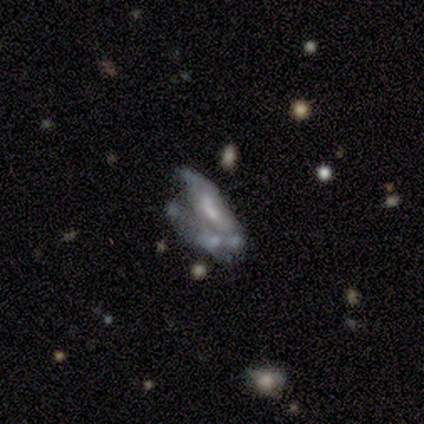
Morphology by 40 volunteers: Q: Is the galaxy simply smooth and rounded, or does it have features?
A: featured or disk — 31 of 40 (78%).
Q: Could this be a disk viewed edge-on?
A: no — 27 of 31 (87%).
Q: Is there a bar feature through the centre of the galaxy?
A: no — 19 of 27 (70%).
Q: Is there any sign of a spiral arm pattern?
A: no — 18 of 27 (67%).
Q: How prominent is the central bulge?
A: small — 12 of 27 (44%).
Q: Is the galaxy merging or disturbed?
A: major disturbance — 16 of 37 (43%).